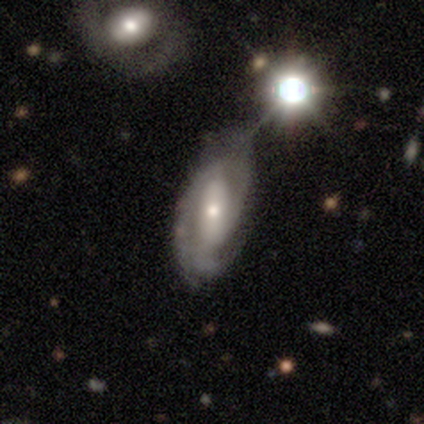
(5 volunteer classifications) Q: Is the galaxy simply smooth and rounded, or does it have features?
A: featured or disk — 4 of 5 (80%).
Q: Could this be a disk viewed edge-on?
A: no — 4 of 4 (100%).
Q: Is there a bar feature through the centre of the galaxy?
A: strong — 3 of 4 (75%).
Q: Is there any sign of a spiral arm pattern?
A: yes — 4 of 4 (100%).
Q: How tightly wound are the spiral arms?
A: medium — 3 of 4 (75%).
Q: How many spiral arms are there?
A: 3 — 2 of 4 (50%).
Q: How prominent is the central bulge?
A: small — 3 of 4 (75%).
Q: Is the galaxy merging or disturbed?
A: none — 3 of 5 (60%).